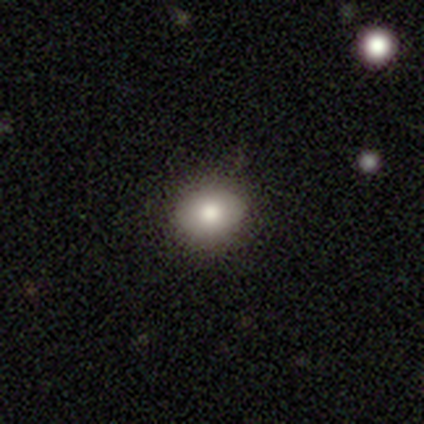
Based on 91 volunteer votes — Smooth or featured: smooth — 73% (featured or disk — 16%)
How rounded: round — 52% (in between — 47%)
Merging: none — 90% (minor disturbance — 7%)